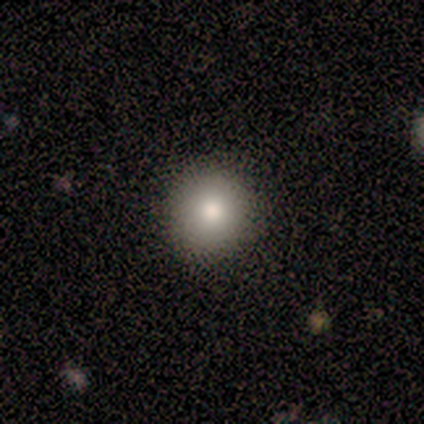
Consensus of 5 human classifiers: Volunteers were most divided on "how rounded": round: 75%, in between: 25%, cigar-shaped: 0%. More confident: merging — none (100%); smooth or featured — smooth (80%).